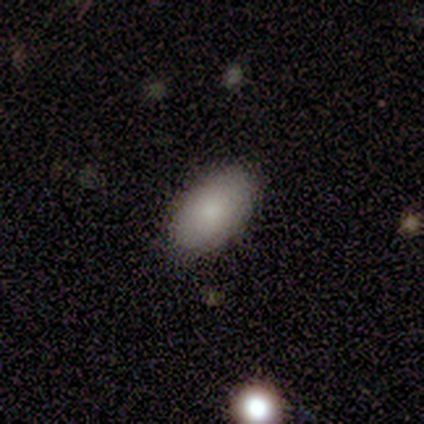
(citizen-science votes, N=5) A smooth galaxy with no disk features (80%) that is in between round and cigar-shaped (100%). Merging: none (100%).